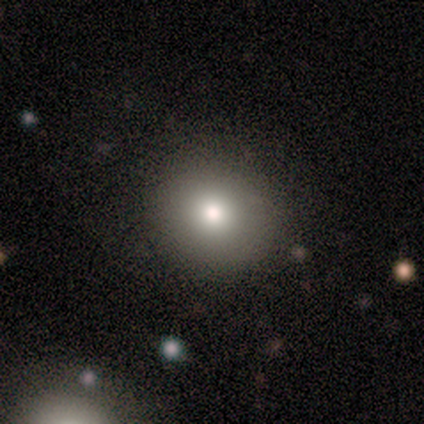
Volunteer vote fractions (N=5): Smooth or featured?
  - smooth: 80% *
  - star or artifact: 20%
  - featured or disk: 0%
How rounded?
  - round: 100% *
  - in between: 0%
  - cigar-shaped: 0%
Merging?
  - none: 100% *
  - minor disturbance: 0%
  - major disturbance: 0%
  - merger: 0%